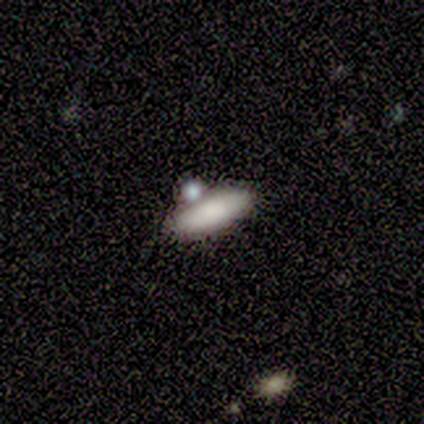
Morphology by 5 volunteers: A smooth galaxy with no disk features (80%) that is in between round and cigar-shaped (75%).

Vote fractions:
- Smooth or featured? smooth: 80% / featured or disk: 20% / star or artifact: 0%
- How rounded? in between: 75% / cigar-shaped: 25% / round: 0%
- Merging? none: 60% / major disturbance: 20% / merger: 20% / minor disturbance: 0%